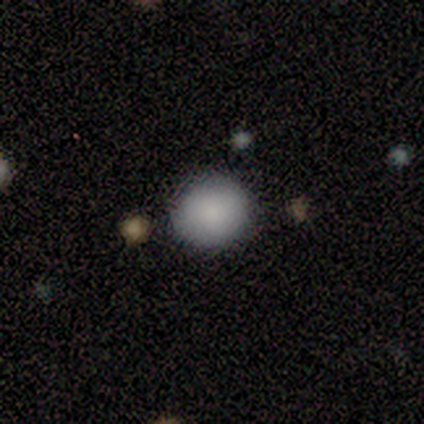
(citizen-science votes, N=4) smooth_or_featured: smooth (p=1.00)
how_rounded: round (p=1.00)
merging: none (p=0.75) [alt: minor disturbance p=0.25]